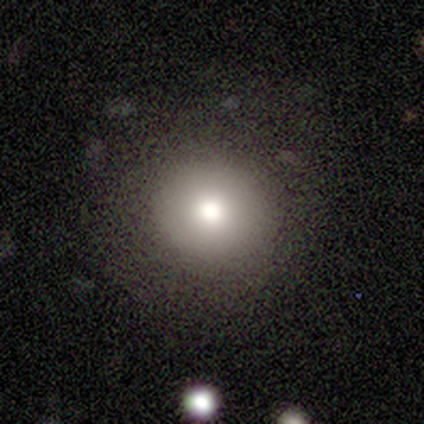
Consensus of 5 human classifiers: A smooth galaxy with no disk features (80%) that is round (100%).

Vote fractions:
- Smooth or featured? smooth: 80% / star or artifact: 20% / featured or disk: 0%
- How rounded? round: 100% / in between: 0% / cigar-shaped: 0%
- Merging? none: 100% / minor disturbance: 0% / major disturbance: 0% / merger: 0%